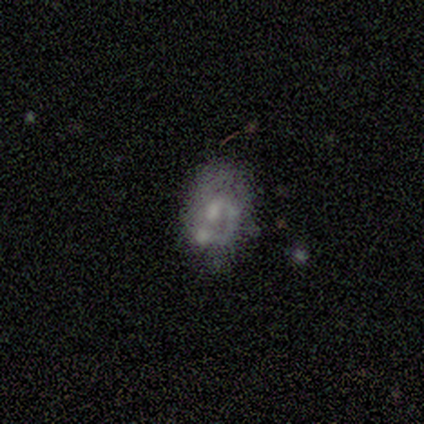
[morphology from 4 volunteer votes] A smooth galaxy with no disk features (50%, tied with featured or disk) that is in between round and cigar-shaped (100%). Merging: none (25%, tied with minor disturbance, major disturbance and merger).